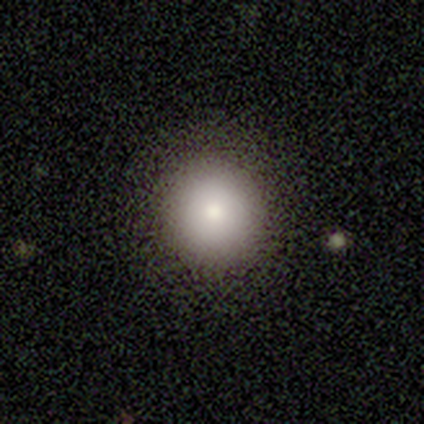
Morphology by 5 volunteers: smooth_or_featured: smooth (p=0.80) [alt: featured or disk p=0.20]
how_rounded: round (p=1.00)
merging: none (p=1.00)